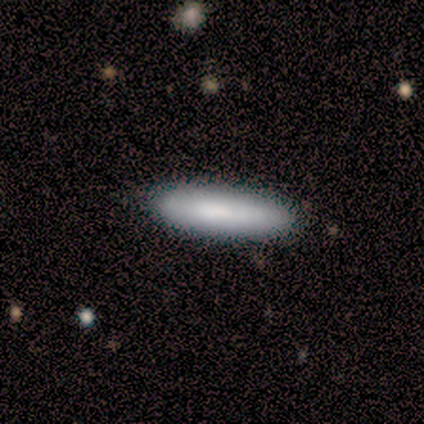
Overall: smooth (67%; featured or disk 33%). How rounded: cigar-shaped (100%). Merging: none (67%; minor disturbance 33%).